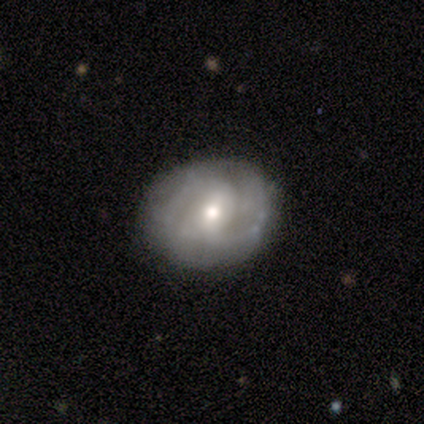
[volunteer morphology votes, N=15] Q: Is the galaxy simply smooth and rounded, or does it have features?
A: featured or disk — 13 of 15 (87%).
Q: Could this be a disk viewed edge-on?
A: no — 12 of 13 (92%).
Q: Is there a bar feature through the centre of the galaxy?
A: weak — 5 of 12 (42%, tied with no).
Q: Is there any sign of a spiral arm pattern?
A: yes — 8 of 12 (67%).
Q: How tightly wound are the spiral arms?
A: medium — 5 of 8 (62%).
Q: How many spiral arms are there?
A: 2 — 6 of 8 (75%).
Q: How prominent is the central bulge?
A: moderate — 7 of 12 (58%).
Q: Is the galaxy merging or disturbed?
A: none — 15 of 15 (100%).